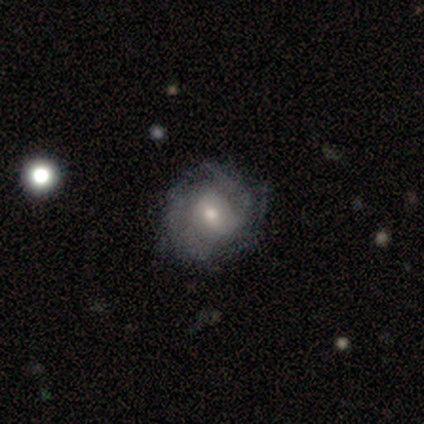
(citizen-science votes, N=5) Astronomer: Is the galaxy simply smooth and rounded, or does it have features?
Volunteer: featured or disk — 100%.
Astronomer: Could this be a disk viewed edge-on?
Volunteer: no — 100%.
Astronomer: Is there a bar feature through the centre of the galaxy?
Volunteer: weak — 40%, tied with no at 40%.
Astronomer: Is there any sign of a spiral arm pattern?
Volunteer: yes — 80%.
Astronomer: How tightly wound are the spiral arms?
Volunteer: tight — 50%.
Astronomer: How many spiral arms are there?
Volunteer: can't tell — 100%.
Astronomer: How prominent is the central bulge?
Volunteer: moderate — 60% (runner-up: small, 40%).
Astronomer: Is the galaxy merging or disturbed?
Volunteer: none — 80%.